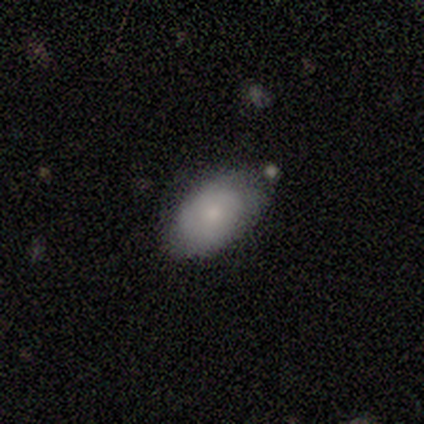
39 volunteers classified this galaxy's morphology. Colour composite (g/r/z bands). It shows a smooth galaxy with no disk features (72%) that is in between round and cigar-shaped (93%). Merging: none (79%).